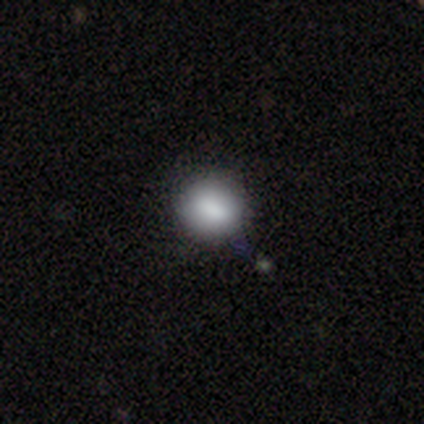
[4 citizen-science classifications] This is clearly a smooth galaxy (100%). How rounded: likely round (75%). Merging: possibly none (50%).